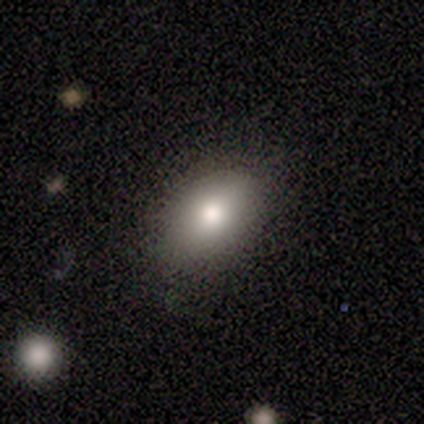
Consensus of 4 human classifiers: Volunteers were most divided on "smooth or featured" (2-way tie): smooth: 50%, featured or disk: 50%, star or artifact: 0%. More confident: how rounded — in between (100%); merging — none (100%).